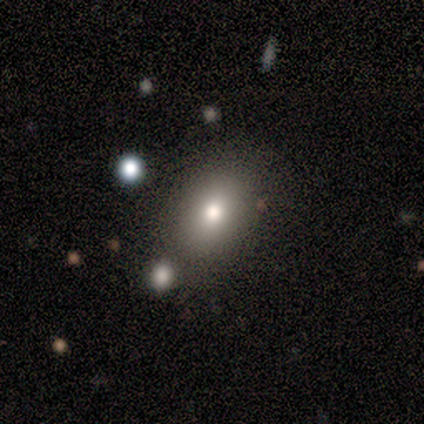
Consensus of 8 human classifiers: smooth-or-featured: smooth: 62% | featured or disk: 25% | star or artifact: 12%
  how-rounded: in between: 80% | round: 20% | cigar-shaped: 0%
  merging: none: 86% | merger: 14% | minor disturbance: 0% | major disturbance: 0%